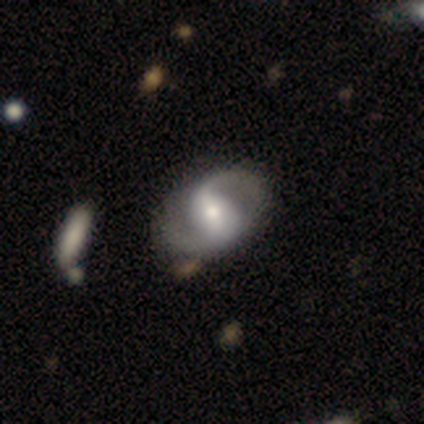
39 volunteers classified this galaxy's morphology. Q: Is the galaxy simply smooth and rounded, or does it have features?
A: featured or disk — 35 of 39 (90%).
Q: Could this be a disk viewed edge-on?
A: no — 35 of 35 (100%).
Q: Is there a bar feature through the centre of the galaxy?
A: weak — 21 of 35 (60%).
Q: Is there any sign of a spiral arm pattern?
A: yes — 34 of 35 (97%).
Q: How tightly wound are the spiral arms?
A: medium — 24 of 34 (71%).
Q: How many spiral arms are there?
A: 2 — 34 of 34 (100%).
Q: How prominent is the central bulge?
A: moderate — 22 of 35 (63%).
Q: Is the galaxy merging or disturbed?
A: none — 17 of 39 (44%).